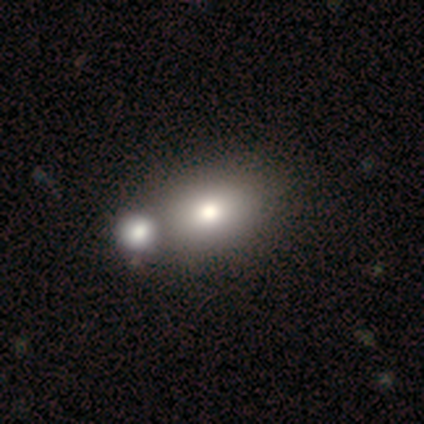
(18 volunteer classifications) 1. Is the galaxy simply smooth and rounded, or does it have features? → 72% smooth, 17% featured or disk, 11% star or artifact.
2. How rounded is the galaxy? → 77% in between, 23% round, 0% cigar-shaped.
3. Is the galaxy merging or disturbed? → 50% merger, 44% none, 6% minor disturbance, 0% major disturbance.